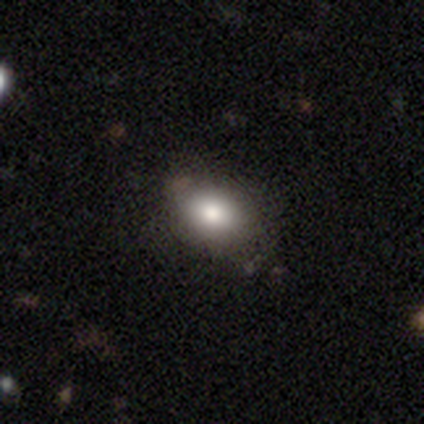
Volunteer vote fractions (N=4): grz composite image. It shows a smooth galaxy with no disk features (100%) that is in between round and cigar-shaped (100%). Merging: none (100%).